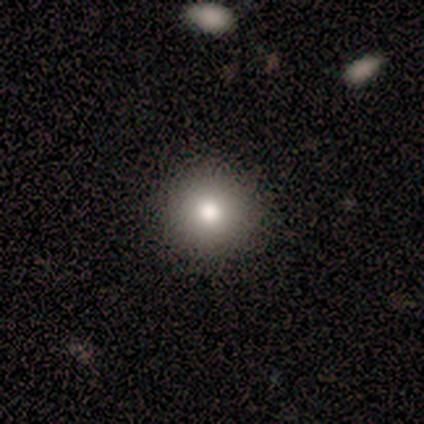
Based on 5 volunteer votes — This is clearly a smooth galaxy (80%). How rounded: clearly round (100%). Merging: clearly none (100%).